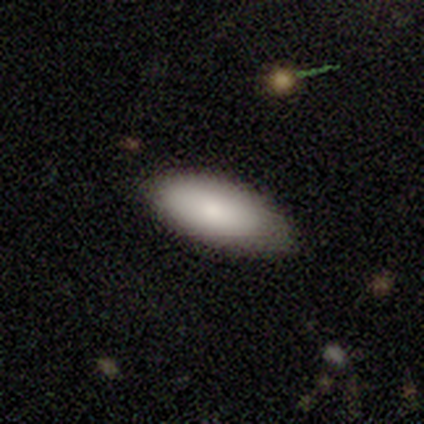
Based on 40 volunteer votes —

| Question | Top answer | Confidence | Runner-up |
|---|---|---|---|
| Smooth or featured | smooth | 75% | featured or disk (18%) |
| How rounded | in between | 93% | round (3%) |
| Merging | none | 73% | minor disturbance (22%) |